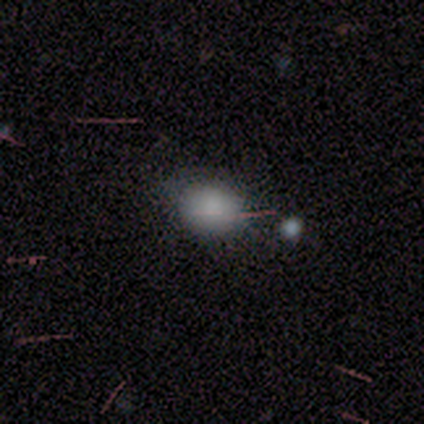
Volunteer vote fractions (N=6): Smooth or featured: smooth — 67% (star or artifact — 33%)
How rounded: round — 75% (in between — 25%)
Merging: none — 75% (minor disturbance — 25%)